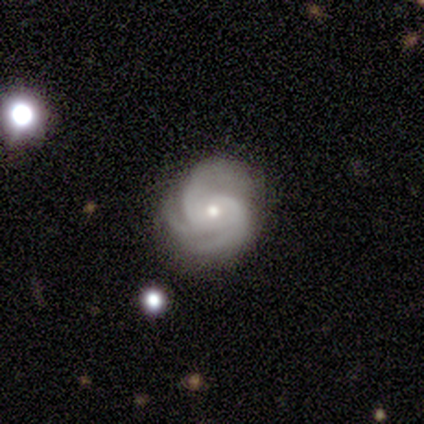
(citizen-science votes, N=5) Overall: featured or disk (100%). Edge-on disk: no (100%). Bar: no (60%; strong 20%). Spiral arms: yes (100%). Spiral arm count: 3 (100%). Spiral winding: medium (60%; tight 40%). Bulge size: small (60%; moderate 40%). Merging: none (80%).